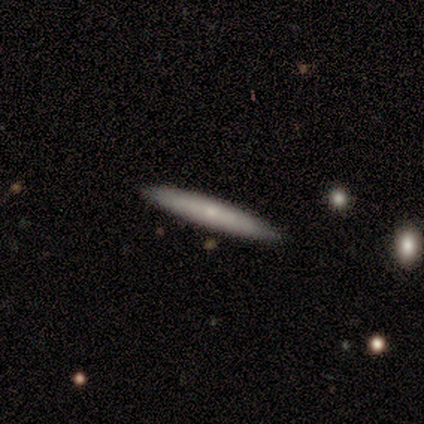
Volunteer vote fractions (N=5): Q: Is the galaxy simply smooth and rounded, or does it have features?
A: smooth — 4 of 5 (80%).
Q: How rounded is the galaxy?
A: cigar-shaped — 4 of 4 (100%).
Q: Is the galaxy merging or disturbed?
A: none — 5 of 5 (100%).